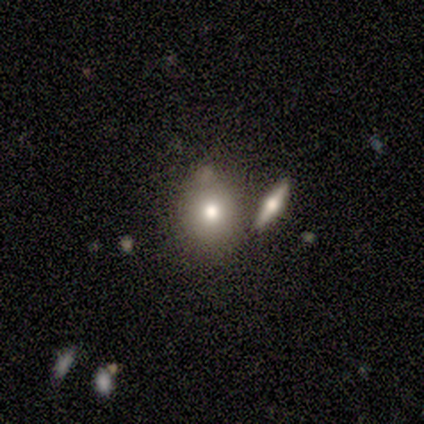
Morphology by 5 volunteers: Volunteers were most divided on "smooth or featured" (2-way tie): smooth: 40%, featured or disk: 40%, star or artifact: 20%; "how rounded" (2-way tie): round: 50%, in between: 50%, cigar-shaped: 0%. More confident: merging — merger (50%).